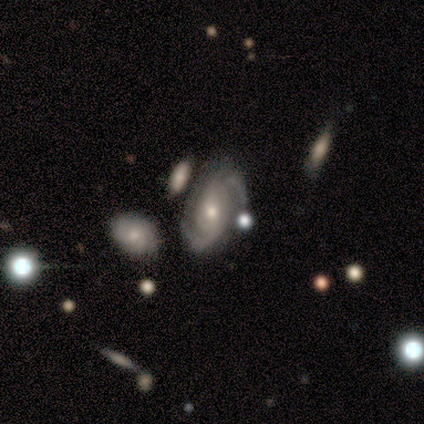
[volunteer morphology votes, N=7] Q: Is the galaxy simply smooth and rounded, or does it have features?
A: featured or disk — 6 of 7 (86%).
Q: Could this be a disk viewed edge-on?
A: no — 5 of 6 (83%).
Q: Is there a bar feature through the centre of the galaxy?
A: no — 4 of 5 (80%).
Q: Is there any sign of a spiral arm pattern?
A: yes — 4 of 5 (80%).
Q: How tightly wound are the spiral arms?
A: medium — 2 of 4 (50%).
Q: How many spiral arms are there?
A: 2 — 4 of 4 (100%).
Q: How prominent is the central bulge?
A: moderate — 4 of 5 (80%).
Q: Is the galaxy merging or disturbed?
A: none — 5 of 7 (71%).